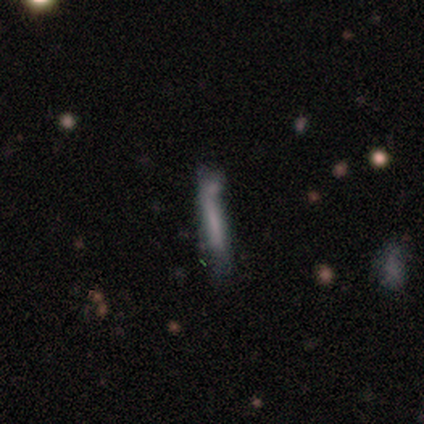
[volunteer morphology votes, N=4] Smooth or featured?
  - smooth: 75% *
  - star or artifact: 25%
  - featured or disk: 0%
How rounded?
  - cigar-shaped: 67% *
  - in between: 33%
  - round: 0%
Merging?
  - none: 67% *
  - merger: 33%
  - minor disturbance: 0%
  - major disturbance: 0%